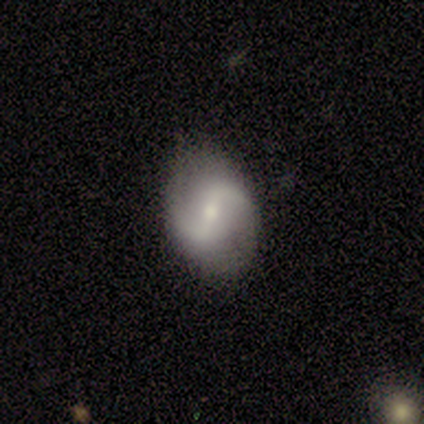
A featured or disk galaxy (50%, tied with star or artifact) with a strong bar (100%), 2 (100%) tight (100%) spiral arms (100%) and a moderate central bulge (100%).

Vote fractions:
- Smooth or featured? featured or disk: 50% (tied) / star or artifact: 50% (tied) / smooth: 0%
- Edge-on disk? no: 100% / yes: 0%
- Bar? strong: 100% / weak: 0% / no: 0%
- Spiral arms? yes: 100% / no: 0%
- Spiral winding? tight: 100% / medium: 0% / loose: 0%
- Spiral arm count? 2: 100% / 1: 0% / 3: 0% / 4: 0% / more than 4: 0% / can't tell: 0%
- Bulge size? moderate: 100% / dominant: 0% / large: 0% / small: 0% / none: 0%
- Merging? none: 100% / minor disturbance: 0% / major disturbance: 0% / merger: 0%